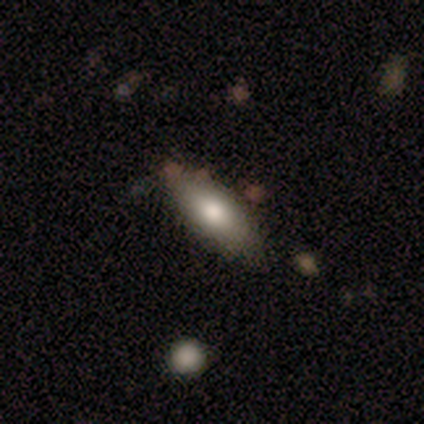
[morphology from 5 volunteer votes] A featured or disk galaxy (60%) viewed edge-on (67%) with a rounded central bulge (100%). Merging: none (60%).